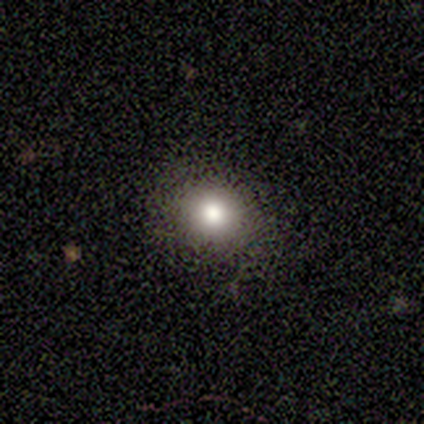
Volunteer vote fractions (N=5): Morphology: type=smooth (80%); roundness=round (100%); merging=none (100%).